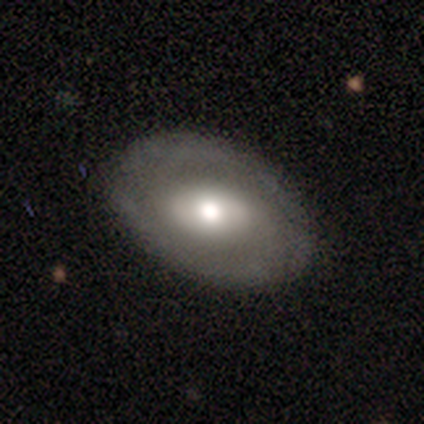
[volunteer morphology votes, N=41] Overall: featured or disk (68%; smooth 29%). Edge-on disk: no (93%). Bar: no (46%; weak 35%). Spiral arms: no (58%; yes 42%). Bulge size: moderate (62%; large 27%). Merging: none (85%).